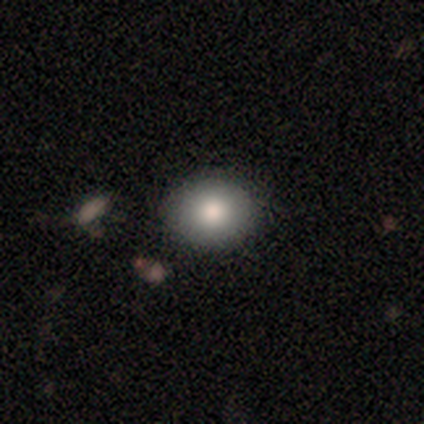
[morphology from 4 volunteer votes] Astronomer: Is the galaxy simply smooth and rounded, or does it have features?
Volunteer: smooth — 100%.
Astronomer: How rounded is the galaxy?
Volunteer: round — 75%.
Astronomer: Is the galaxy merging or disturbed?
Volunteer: none — 75%.